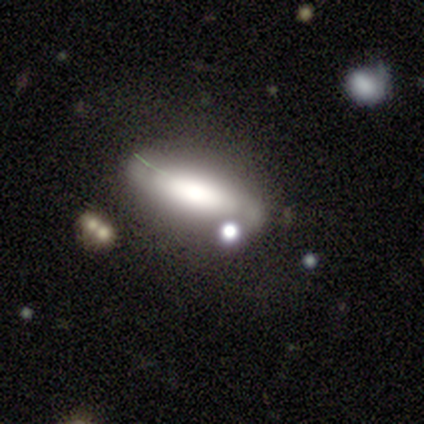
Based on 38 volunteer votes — Smooth or featured? smooth (50%)
How rounded? in between (53%)
Merging? none (40%)